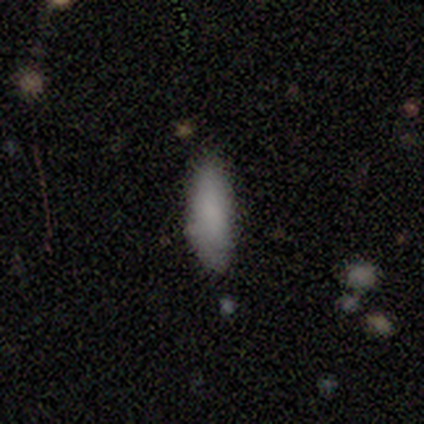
smooth_or_featured: smooth (p=0.92) [alt: featured or disk p=0.08]
how_rounded: in between (p=0.82) [alt: cigar-shaped p=0.18]
merging: none (p=0.92) [alt: major disturbance p=0.08]